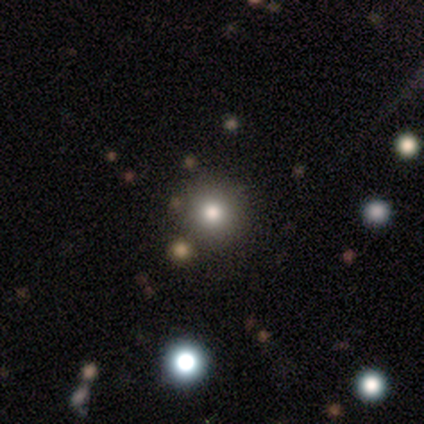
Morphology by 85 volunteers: Smooth or featured: smooth — 71% (star or artifact — 22%)
How rounded: round — 98% (in between — 2%)
Merging: none — 85% (minor disturbance — 9%)